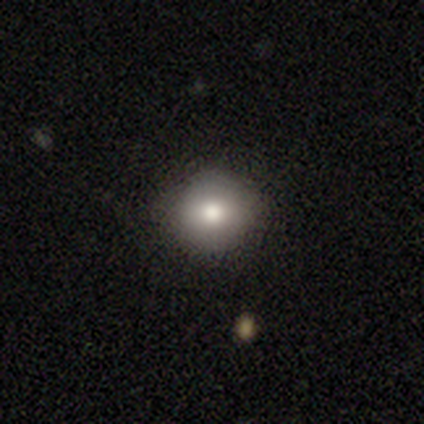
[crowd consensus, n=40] Volunteers were most divided on "smooth or featured": smooth: 80%, star or artifact: 15%, featured or disk: 5%. More confident: how rounded — round (94%); merging — none (88%).